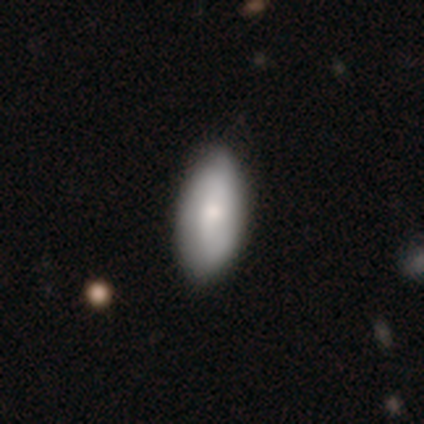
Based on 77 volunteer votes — smooth_or_featured: smooth (p=0.73) [alt: featured or disk p=0.26]
how_rounded: in between (p=0.95) [alt: round p=0.04]
merging: none (p=0.46) [alt: minor disturbance p=0.04]